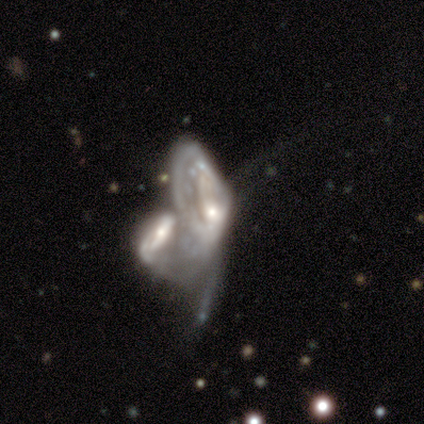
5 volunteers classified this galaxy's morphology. A featured or disk galaxy (80%) with no bar (100%), no spiral arms (100%) and a moderate central bulge (50%, tied with small).

Vote fractions:
- Smooth or featured? featured or disk: 80% / smooth: 20% / star or artifact: 0%
- Edge-on disk? no: 100% / yes: 0%
- Bar? no: 100% / strong: 0% / weak: 0%
- Spiral arms? no: 100% / yes: 0%
- Bulge size? moderate: 50% (tied) / small: 50% (tied) / dominant: 0% / large: 0% / none: 0%
- Merging? merger: 60% / none: 20% / major disturbance: 20% / minor disturbance: 0%